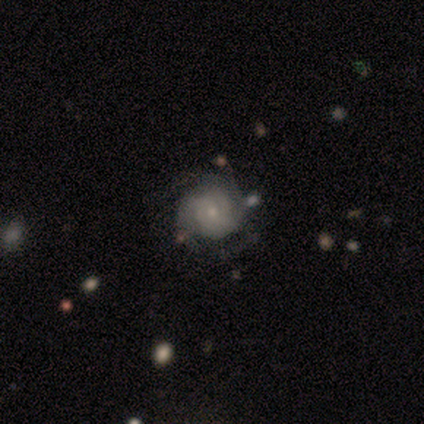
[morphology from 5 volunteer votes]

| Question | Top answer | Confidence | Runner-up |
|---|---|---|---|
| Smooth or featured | featured or disk | 100% | — |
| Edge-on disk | no | 100% | — |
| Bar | no | 80% | weak (20%) |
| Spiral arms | yes | 100% | — |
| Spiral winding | tight | 80% | medium (20%) |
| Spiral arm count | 3 | 40% | tied: can't tell (40%) |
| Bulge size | small | 80% | none (20%) |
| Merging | minor disturbance | 60% | major disturbance (20%) |